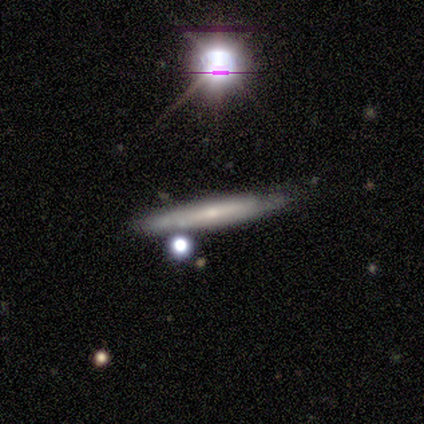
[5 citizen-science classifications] A featured or disk galaxy (60%) viewed edge-on (100%) with a boxy central bulge (33%, tied with none and rounded).

Vote fractions:
- Smooth or featured? featured or disk: 60% / smooth: 20% / star or artifact: 20%
- Edge-on disk? yes: 100% / no: 0%
- Edge-on bulge? boxy: 33% (tied) / none: 33% (tied) / rounded: 33% (tied)
- Merging? none: 100% / minor disturbance: 0% / major disturbance: 0% / merger: 0%